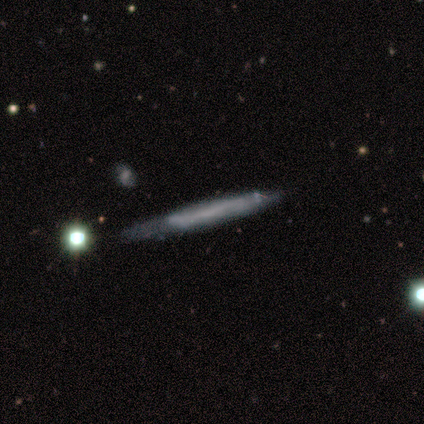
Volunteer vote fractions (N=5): Smooth or featured? smooth (60%)
How rounded? cigar-shaped (100%)
Merging? none (60%)